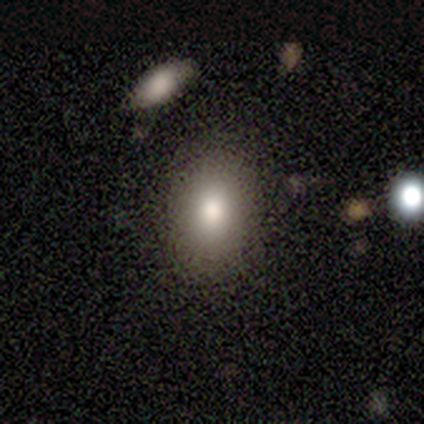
Smooth or featured? 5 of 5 (100%) said smooth. How rounded? 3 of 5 (60%) said in between. Merging? 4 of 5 (80%) said none.